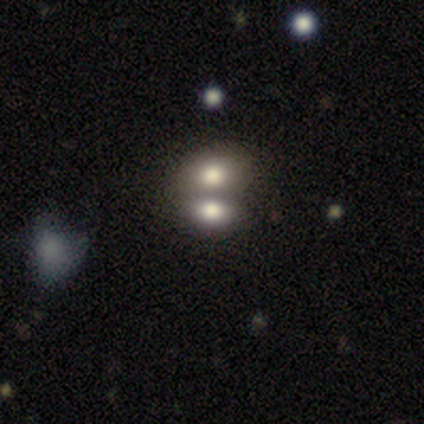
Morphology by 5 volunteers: Volunteers were most divided on "smooth or featured" (2-way tie): featured or disk: 40%, star or artifact: 40%, smooth: 20%; "bulge size" (2-way tie): dominant: 50%, large: 50%, moderate: 0%, small: 0%, none: 0%. More confident: edge-on disk — no (100%); bar — no (100%); spiral arms — no (100%); merging — merger (67%).